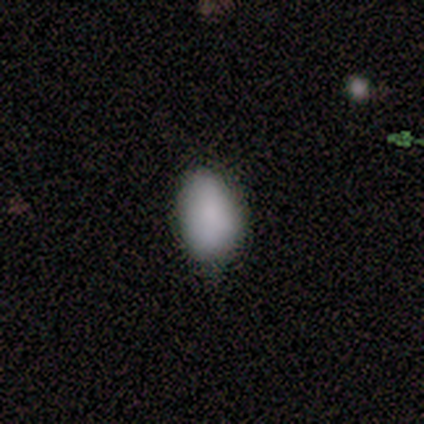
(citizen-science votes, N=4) This appears to be a smooth galaxy with no disk features (75%) that is in between round and cigar-shaped (100%). Merging: none (67%).